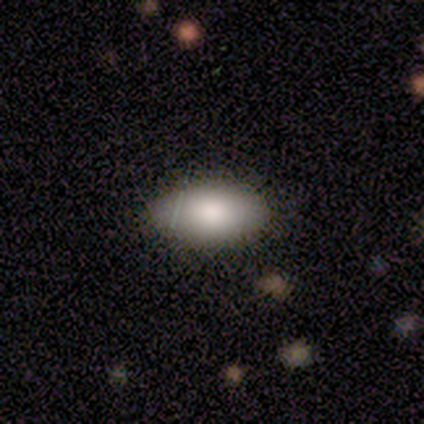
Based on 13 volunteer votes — Smooth or featured?
  - smooth: 92% *
  - featured or disk: 8%
  - star or artifact: 0%
How rounded?
  - in between: 92% *
  - cigar-shaped: 8%
  - round: 0%
Merging?
  - none: 92% *
  - minor disturbance: 8%
  - major disturbance: 0%
  - merger: 0%